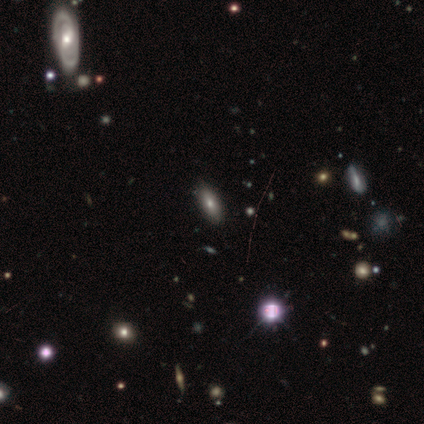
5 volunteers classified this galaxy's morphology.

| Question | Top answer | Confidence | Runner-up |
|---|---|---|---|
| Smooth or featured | smooth | 40% | tied: featured or disk (40%) |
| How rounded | in between | 100% | — |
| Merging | none | 100% | — |